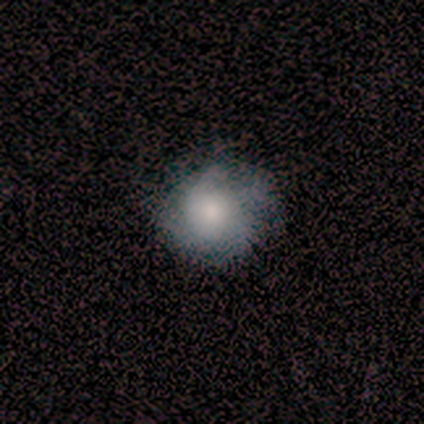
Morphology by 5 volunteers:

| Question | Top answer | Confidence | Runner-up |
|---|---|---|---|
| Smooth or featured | smooth | 80% | featured or disk (20%) |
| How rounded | round | 100% | — |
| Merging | none | 80% | minor disturbance (20%) |